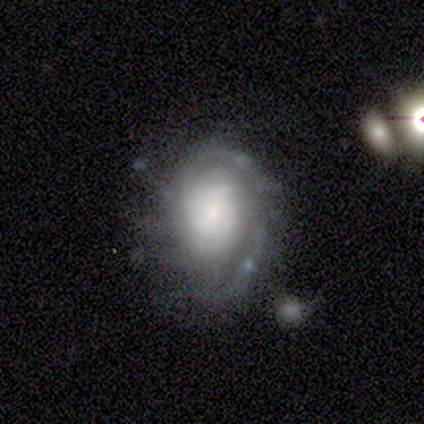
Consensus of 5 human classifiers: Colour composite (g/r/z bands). It shows a featured or disk galaxy (80%) with no bar (75%), tight (50%) spiral arms (100%) and a moderate central bulge (50%). Merging: minor disturbance (60%).